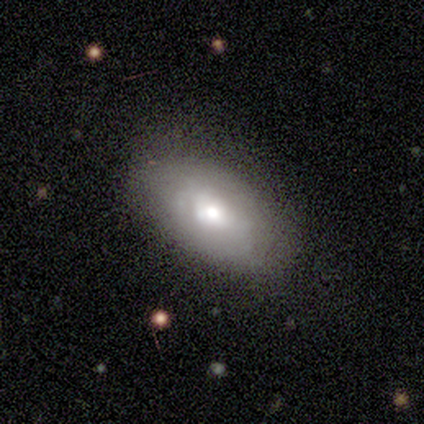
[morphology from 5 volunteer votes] featured or disk 60%, smooth 40%, star or artifact 0%. Down the decision tree: edge-on disk — no (67%); bar — no (100%); spiral arms — yes (50%, tied with no); spiral arm count — 1 (100%); spiral winding — medium (100%); bulge size — large (50%, tied with small); merging — none (80%).